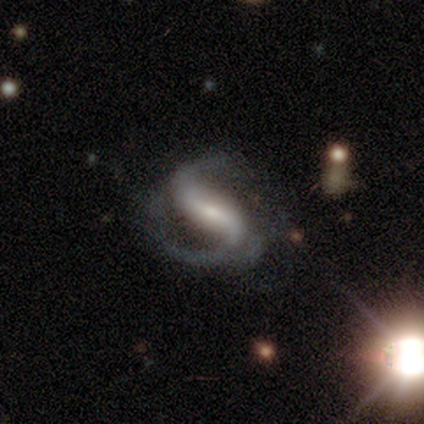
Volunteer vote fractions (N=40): Overall: featured or disk (92%). Edge-on disk: no (100%). Bar: strong (65%; weak 30%). Spiral arms: yes (97%). Spiral arm count: 2 (97%). Spiral winding: medium (53%; loose 36%). Bulge size: moderate (38%, tied with small). Merging: none (40%; minor disturbance 18%).